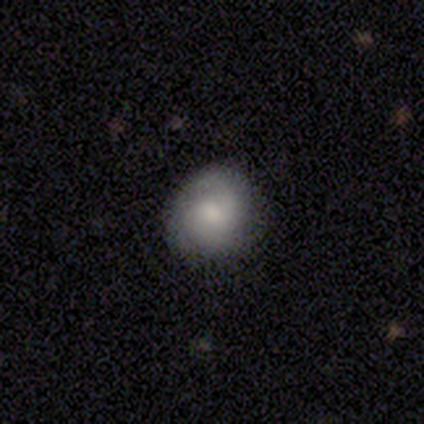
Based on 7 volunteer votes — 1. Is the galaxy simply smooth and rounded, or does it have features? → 86% featured or disk, 14% smooth, 0% star or artifact.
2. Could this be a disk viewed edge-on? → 83% no, 17% yes.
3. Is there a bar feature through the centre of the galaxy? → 100% no, 0% strong, 0% weak.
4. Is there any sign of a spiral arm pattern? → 100% yes, 0% no.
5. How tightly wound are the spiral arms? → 80% medium, 20% loose, 0% tight.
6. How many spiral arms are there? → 60% can't tell, 20% 2, 20% 3, 0% 1, 0% 4, 0% more than 4.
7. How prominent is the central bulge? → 40% moderate (tied), 40% small (tied), 20% none, 0% dominant, 0% large.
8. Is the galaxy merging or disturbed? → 86% none, 14% minor disturbance, 0% major disturbance, 0% merger.